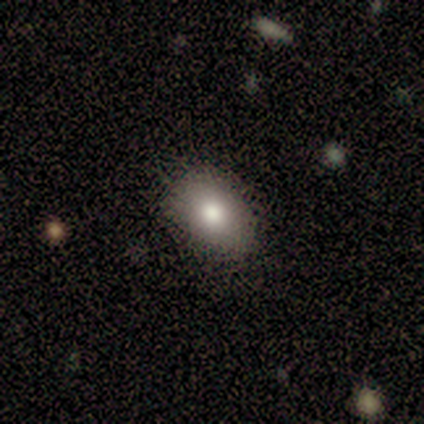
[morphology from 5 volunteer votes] Smooth or featured?
  - smooth: 60% *
  - featured or disk: 40%
  - star or artifact: 0%
How rounded?
  - in between: 100% *
  - round: 0%
  - cigar-shaped: 0%
Merging?
  - none: 60% *
  - minor disturbance: 20%
  - major disturbance: 20%
  - merger: 0%